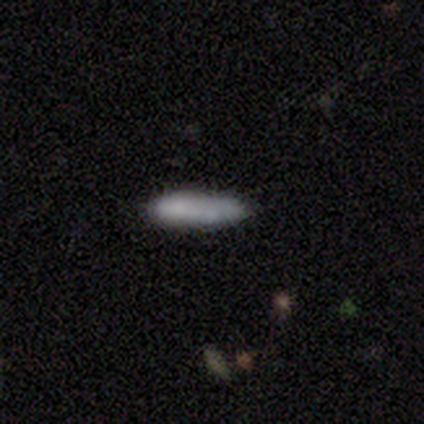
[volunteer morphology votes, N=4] Smooth or featured?
  - smooth: 100% *
  - featured or disk: 0%
  - star or artifact: 0%
How rounded?
  - in between: 50% * (tied)
  - cigar-shaped: 50% * (tied)
  - round: 0%
Merging?
  - none: 100% *
  - minor disturbance: 0%
  - major disturbance: 0%
  - merger: 0%